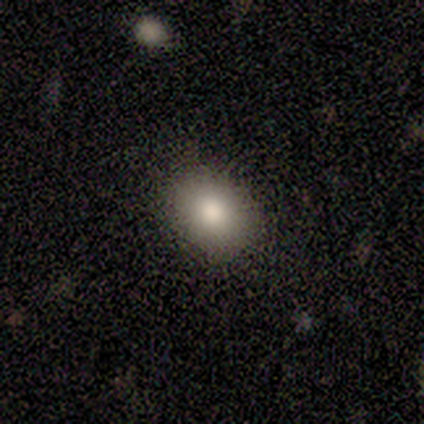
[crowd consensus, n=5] A smooth galaxy with no disk features (80%) that is in between round and cigar-shaped (75%).

Vote fractions:
- Smooth or featured? smooth: 80% / star or artifact: 20% / featured or disk: 0%
- How rounded? in between: 75% / round: 25% / cigar-shaped: 0%
- Merging? none: 75% / minor disturbance: 25% / major disturbance: 0% / merger: 0%